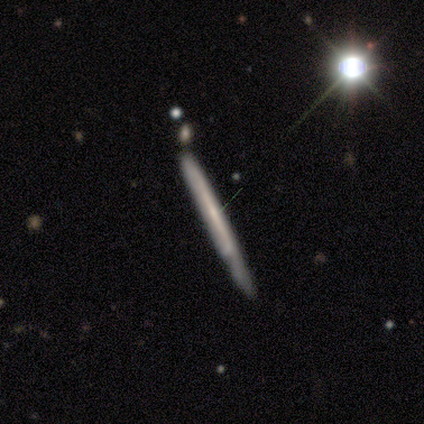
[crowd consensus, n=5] A featured or disk galaxy (100%) with no bar (67%), 1 (33%, tied with more than 4 and can't tell) tight (67%) spiral arms (100%) and a small central bulge (67%). Merging: none (80%).